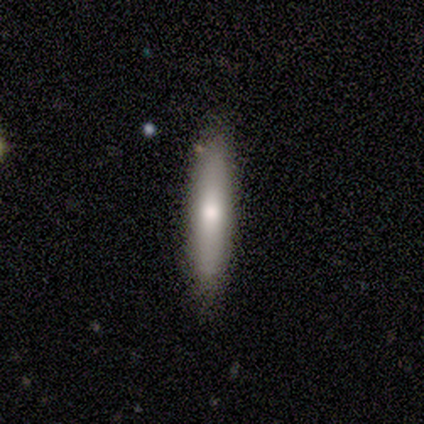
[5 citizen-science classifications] smooth 80%, featured or disk 20%, star or artifact 0%. Down the decision tree: how rounded — cigar-shaped (75%); merging — none (60%).